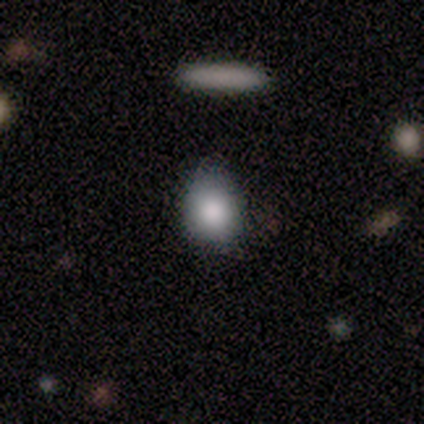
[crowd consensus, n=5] A smooth galaxy with no disk features (80%) that is round (50%, tied with in between).

Vote fractions:
- Smooth or featured? smooth: 80% / featured or disk: 20% / star or artifact: 0%
- How rounded? round: 50% (tied) / in between: 50% (tied) / cigar-shaped: 0%
- Merging? none: 60% / minor disturbance: 40% / major disturbance: 0% / merger: 0%